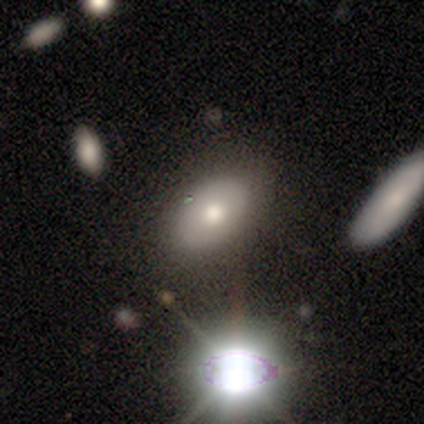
This appears to be a star or artifact, not a galaxy (50%).